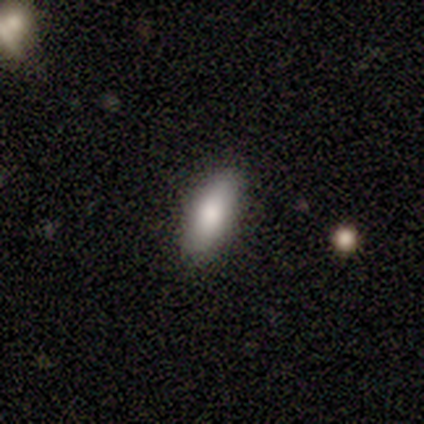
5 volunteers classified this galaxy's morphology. Smooth or featured? 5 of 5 (100%) said smooth. How rounded? 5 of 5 (100%) said in between. Merging? 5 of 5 (100%) said none.